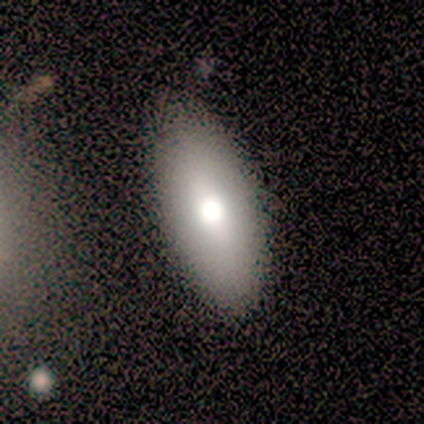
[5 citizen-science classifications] Volunteers were most divided on "how rounded": in between: 75%, round: 25%, cigar-shaped: 0%. More confident: smooth or featured — smooth (80%); merging — none (75%).